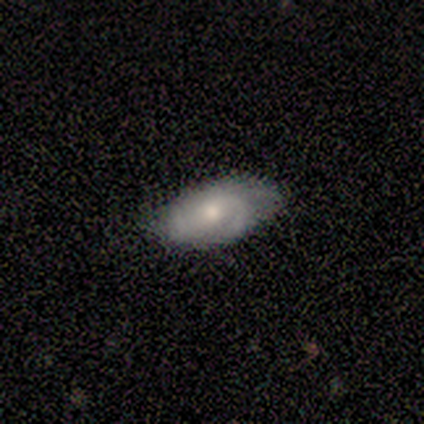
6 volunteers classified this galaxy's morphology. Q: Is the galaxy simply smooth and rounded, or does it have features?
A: featured or disk — 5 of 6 (83%).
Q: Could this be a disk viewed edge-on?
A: no — 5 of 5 (100%).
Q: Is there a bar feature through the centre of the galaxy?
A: weak — 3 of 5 (60%).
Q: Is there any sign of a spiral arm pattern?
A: yes — 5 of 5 (100%).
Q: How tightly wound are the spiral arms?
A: tight — 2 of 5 (40%, tied with loose).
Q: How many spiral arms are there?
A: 2 — 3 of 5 (60%).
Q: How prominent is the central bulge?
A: moderate — 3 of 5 (60%).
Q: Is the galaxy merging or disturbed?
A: none — 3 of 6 (50%, tied with minor disturbance).